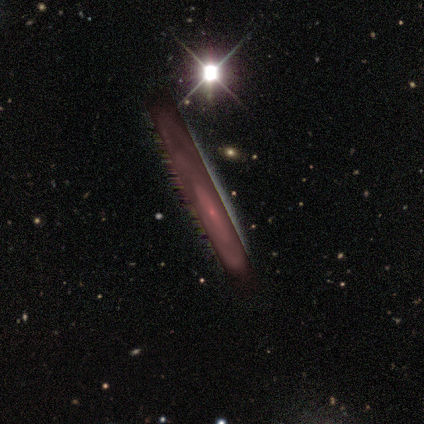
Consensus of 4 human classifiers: Smooth or featured? 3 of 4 (75%) said star or artifact.